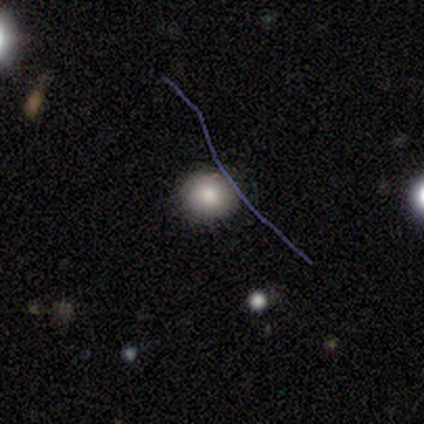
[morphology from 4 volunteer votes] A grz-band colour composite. It shows a smooth galaxy with no disk features (75%) that is round (100%). Merging: none (50%).